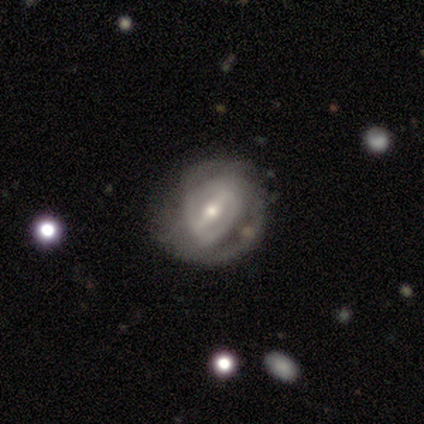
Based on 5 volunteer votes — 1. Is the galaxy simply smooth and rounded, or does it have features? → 100% featured or disk, 0% smooth, 0% star or artifact.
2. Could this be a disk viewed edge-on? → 100% no, 0% yes.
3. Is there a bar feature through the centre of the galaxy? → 80% strong, 20% weak, 0% no.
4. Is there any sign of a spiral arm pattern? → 100% yes, 0% no.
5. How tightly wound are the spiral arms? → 60% tight, 40% medium, 0% loose.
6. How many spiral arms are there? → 80% 2, 20% 3, 0% 1, 0% 4, 0% more than 4, 0% can't tell.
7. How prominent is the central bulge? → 60% small, 40% moderate, 0% dominant, 0% large, 0% none.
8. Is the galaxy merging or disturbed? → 40% none (tied), 40% major disturbance (tied), 20% minor disturbance, 0% merger.